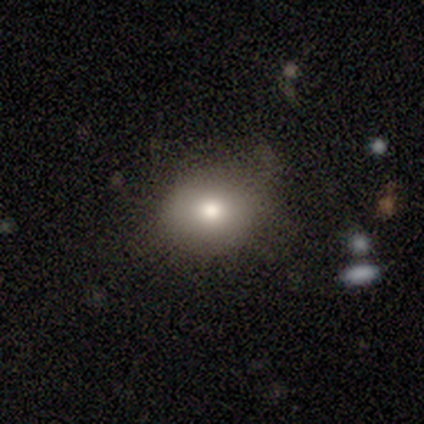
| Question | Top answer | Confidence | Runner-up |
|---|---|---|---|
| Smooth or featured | smooth | 80% | star or artifact (20%) |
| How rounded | round | 50% | tied: in between (50%) |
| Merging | none | 75% | minor disturbance (25%) |